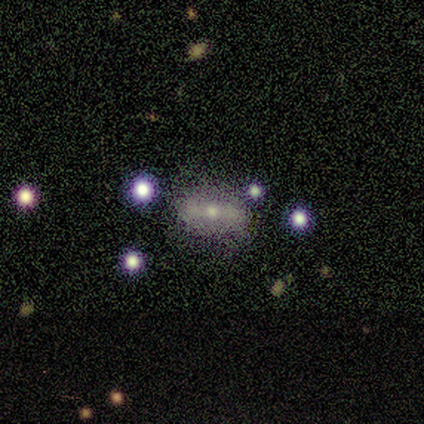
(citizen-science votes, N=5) Q: Smooth or featured?
A: featured or disk (80%); runner-up: smooth (20%)
Q: Edge-on disk?
A: no (75%); runner-up: yes (25%)
Q: Bar?
A: strong (100%)
Q: Spiral arms?
A: yes (67%); runner-up: no (33%)
Q: Spiral winding?
A: medium (100%)
Q: Spiral arm count?
A: 2 (50%); tied with: can't tell (50%)
Q: Bulge size?
A: moderate (100%)
Q: Merging?
A: none (40%); tied with: minor disturbance (40%)